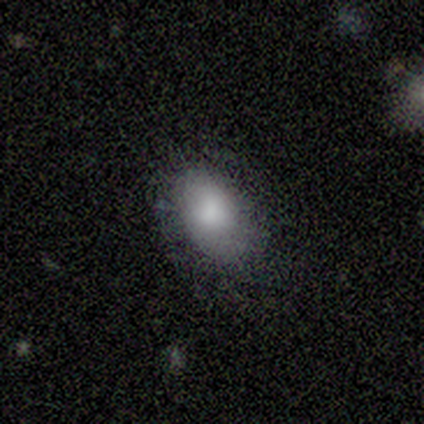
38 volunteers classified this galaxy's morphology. Overall: smooth (82%). How rounded: in between (84%). Merging: none (56%; minor disturbance 39%).